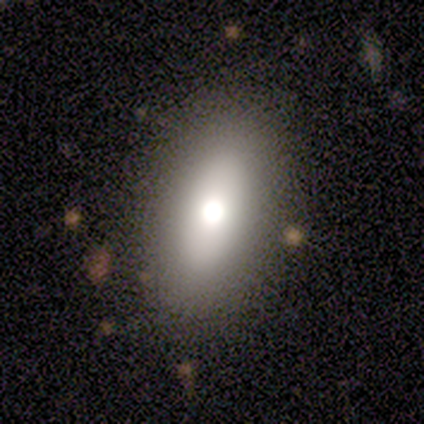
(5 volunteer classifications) Morphology: type=smooth (80%); roundness=in between (100%); merging=none (100%).